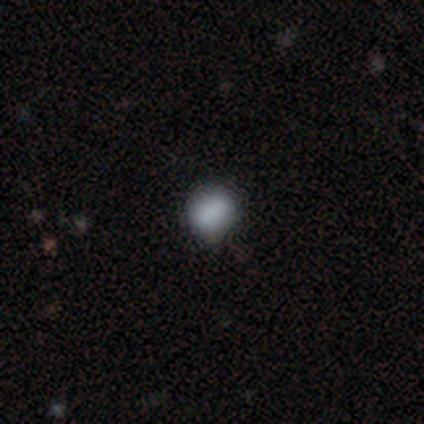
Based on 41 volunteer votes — A smooth galaxy with no disk features (80%) that is in between round and cigar-shaped (52%). Merging: none (76%).